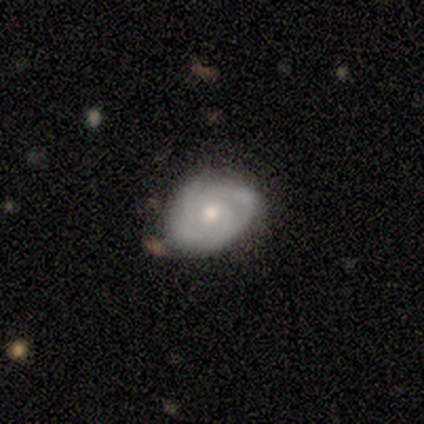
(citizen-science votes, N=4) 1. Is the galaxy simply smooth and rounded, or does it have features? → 75% featured or disk, 25% smooth, 0% star or artifact.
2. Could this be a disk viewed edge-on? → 100% no, 0% yes.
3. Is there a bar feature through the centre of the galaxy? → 100% no, 0% strong, 0% weak.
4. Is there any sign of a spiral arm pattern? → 100% yes, 0% no.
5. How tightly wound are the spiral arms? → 67% tight, 33% loose, 0% medium.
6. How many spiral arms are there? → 67% 3, 33% can't tell, 0% 1, 0% 2, 0% 4, 0% more than 4.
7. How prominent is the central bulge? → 100% small, 0% dominant, 0% large, 0% moderate, 0% none.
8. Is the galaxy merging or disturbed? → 50% none (tied), 50% minor disturbance (tied), 0% major disturbance, 0% merger.